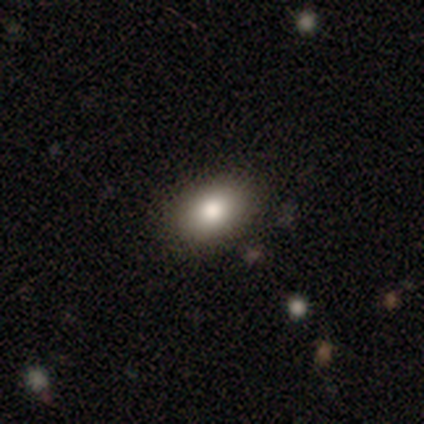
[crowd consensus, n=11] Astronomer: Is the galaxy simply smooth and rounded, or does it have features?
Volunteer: smooth — 55%.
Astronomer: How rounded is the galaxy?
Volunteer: in between — 100%.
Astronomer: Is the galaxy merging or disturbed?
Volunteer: none — 100%.